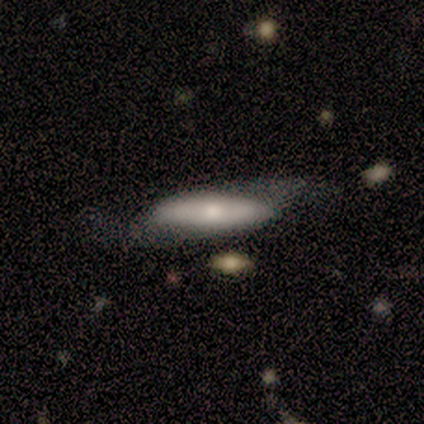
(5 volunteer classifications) Overall: featured or disk (60%; smooth 40%). Edge-on disk: no (67%; yes 33%). Bar: no (100%). Spiral arms: yes (50%, tied with no). Spiral arm count: 2 (100%). Spiral winding: loose (100%). Bulge size: moderate (100%). Merging: none (40%, tied with minor disturbance).